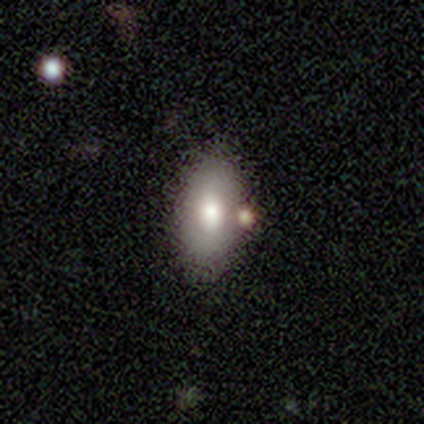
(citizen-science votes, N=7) Smooth or featured? smooth (71%)
How rounded? in between (100%)
Merging? none (67%)